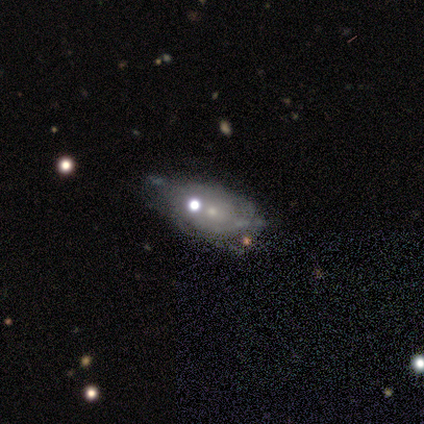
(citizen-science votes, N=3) smooth-or-featured: smooth: 67% | star or artifact: 33% | featured or disk: 0%
  how-rounded: in between: 100% | round: 0% | cigar-shaped: 0%
  merging: none: 50% (tied) | minor disturbance: 50% (tied) | major disturbance: 0% | merger: 0%